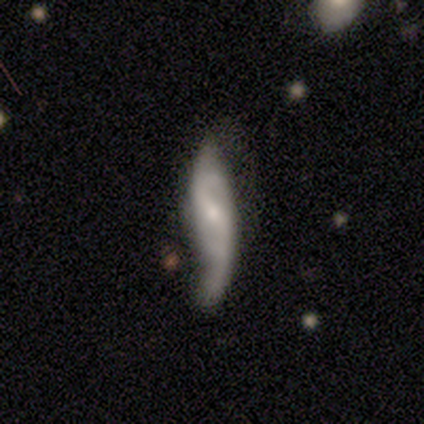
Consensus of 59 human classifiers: This is likely a featured or disk galaxy (76%). It is clearly not viewed edge-on (93%). Bar: marginally weak (43%). Spiral arm pattern: clearly yes (93%). Spiral arm count: clearly 2 (85%). Spiral winding: likely loose (64%). Central bulge: possibly small (50%). Merging: marginally none (45%).